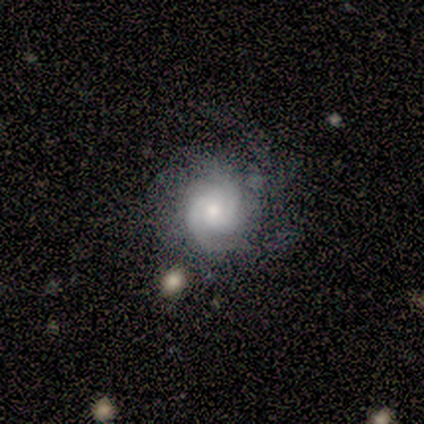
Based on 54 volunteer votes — Smooth or featured? 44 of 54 (81%) said featured or disk. Edge-on disk? 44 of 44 (100%) said no. Bar? 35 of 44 (80%) said no. Spiral arms? 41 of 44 (93%) said yes. Spiral winding? 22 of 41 (54%) said tight. Spiral arm count? 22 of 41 (54%) said 2. Bulge size? 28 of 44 (64%) said moderate. Merging? 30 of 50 (60%) said none.